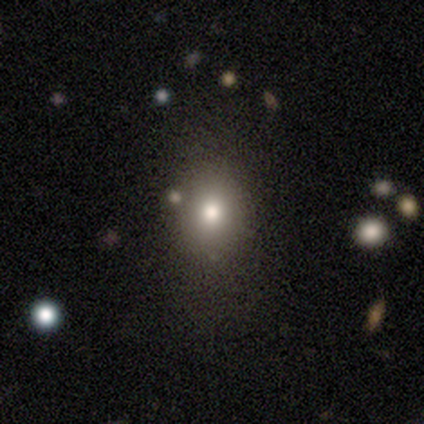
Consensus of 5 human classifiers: smooth_or_featured: smooth (p=0.60) [alt: star or artifact p=0.40]
how_rounded: round (p=0.67) [alt: in between p=0.33]
merging: none (p=0.67) [alt: minor disturbance p=0.33]